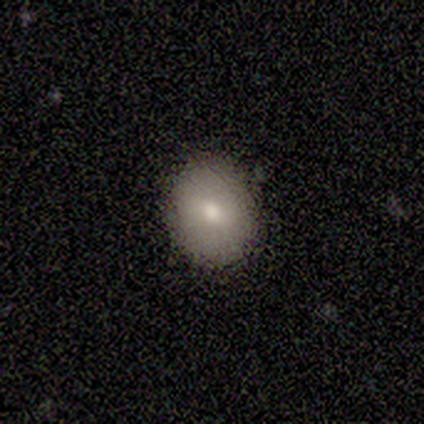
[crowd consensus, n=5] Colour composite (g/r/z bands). It shows a smooth galaxy with no disk features (60%) that is round (67%). Merging: none (100%).